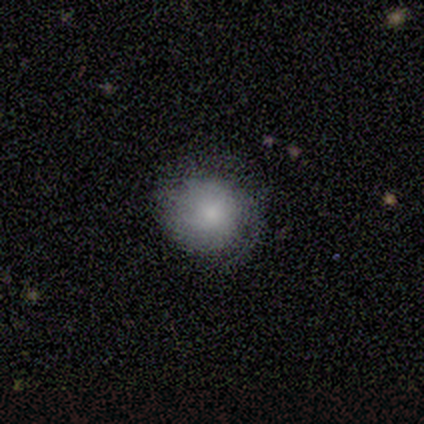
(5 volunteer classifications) A smooth galaxy with no disk features (40%, tied with featured or disk) that is round (100%).

Vote fractions:
- Smooth or featured? smooth: 40% (tied) / featured or disk: 40% (tied) / star or artifact: 20%
- How rounded? round: 100% / in between: 0% / cigar-shaped: 0%
- Merging? none: 75% / minor disturbance: 25% / major disturbance: 0% / merger: 0%